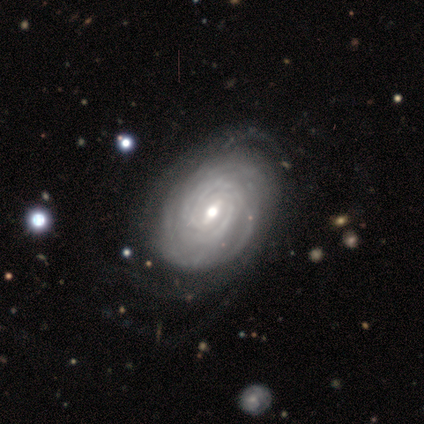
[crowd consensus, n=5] Volunteers were most divided on "bar" (2-way tie): strong: 50%, weak: 50%, no: 0%; "spiral arm count" (2-way tie): more than 4: 50%, can't tell: 50%, 1: 0%, 2: 0%, 3: 0%, 4: 0%. More confident: smooth or featured — featured or disk (100%); spiral arms — yes (100%); merging — none (100%); edge-on disk — no (80%); spiral winding — tight (75%); bulge size — moderate (50%).